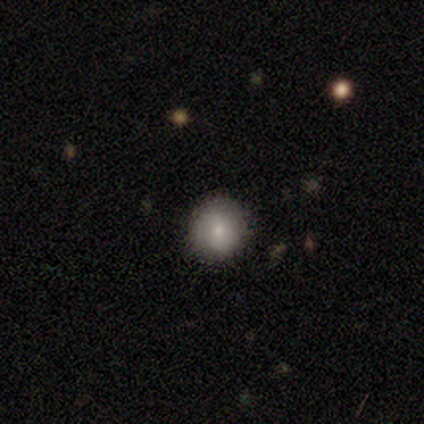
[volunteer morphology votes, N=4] A smooth galaxy with no disk features (100%) that is round (75%). Merging: none (75%).